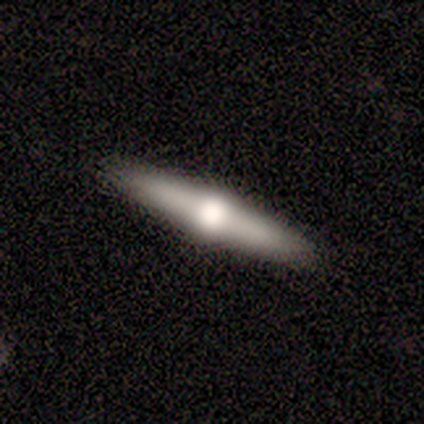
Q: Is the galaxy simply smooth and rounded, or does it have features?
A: featured or disk — 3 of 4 (75%).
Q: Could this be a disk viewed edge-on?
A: yes — 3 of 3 (100%).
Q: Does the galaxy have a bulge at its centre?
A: rounded — 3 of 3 (100%).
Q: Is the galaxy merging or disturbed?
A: none — 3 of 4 (75%).